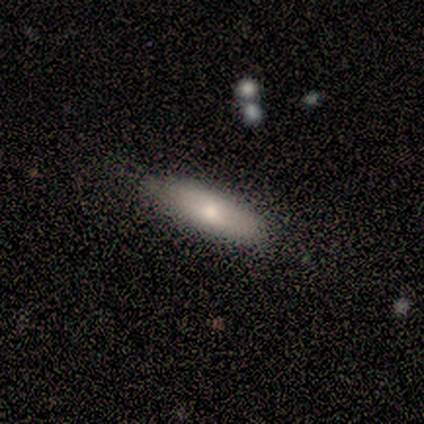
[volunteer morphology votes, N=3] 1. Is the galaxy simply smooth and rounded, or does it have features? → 67% featured or disk, 33% smooth, 0% star or artifact.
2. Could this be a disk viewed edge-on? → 50% yes (tied), 50% no (tied).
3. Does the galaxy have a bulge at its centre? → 100% rounded, 0% boxy, 0% none.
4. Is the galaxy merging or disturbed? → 100% none, 0% minor disturbance, 0% major disturbance, 0% merger.